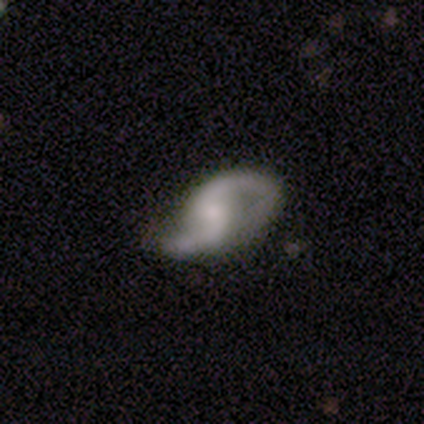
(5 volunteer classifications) smooth_or_featured: featured or disk (p=0.80) [alt: smooth p=0.20]
disk_edge_on: no (p=1.00)
bar: weak (p=0.50) [tied with: no p=0.50]
has_spiral_arms: yes (p=1.00)
spiral_winding: medium (p=0.50) [tied with: loose p=0.50]
spiral_arm_count: 2 (p=0.75) [alt: can't tell p=0.25]
bulge_size: small (p=0.75) [alt: moderate p=0.25]
merging: none (p=1.00)